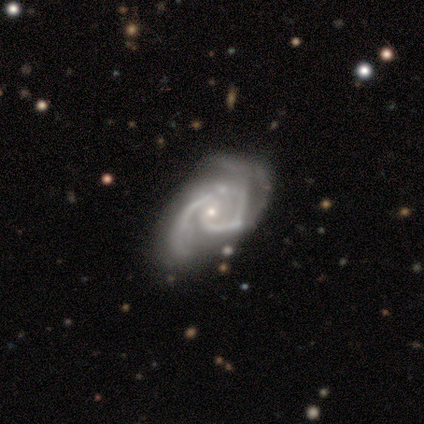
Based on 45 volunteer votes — Overall: featured or disk (98%). Edge-on disk: no (100%). Bar: no (64%; weak 27%). Spiral arms: yes (95%). Spiral arm count: 2 (62%). Spiral winding: medium (40%; tight 38%). Bulge size: small (84%). Merging: none (44%; minor disturbance 27%).